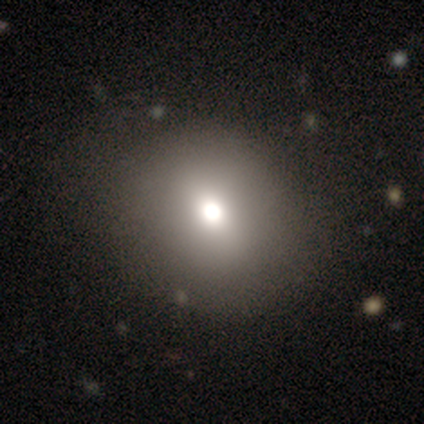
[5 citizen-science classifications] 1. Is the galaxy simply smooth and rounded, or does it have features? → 40% smooth (tied), 40% star or artifact (tied), 20% featured or disk.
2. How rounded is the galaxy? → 50% round (tied), 50% in between (tied), 0% cigar-shaped.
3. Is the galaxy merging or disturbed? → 67% none, 33% merger, 0% minor disturbance, 0% major disturbance.